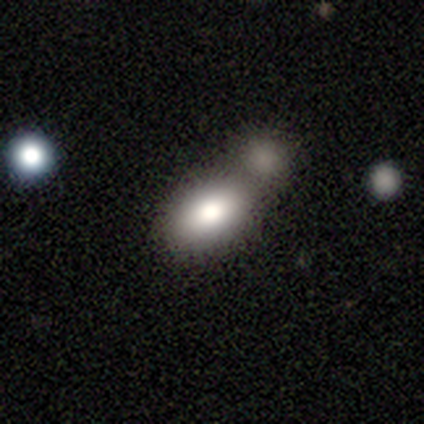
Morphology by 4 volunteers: type=smooth (75%); roundness=in between (100%); merging=none (75%).